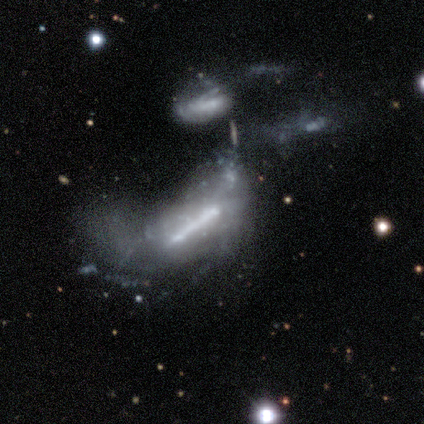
smooth_or_featured: featured or disk (p=0.75) [alt: smooth p=0.25]
disk_edge_on: no (p=0.67) [alt: yes p=0.33]
bar: strong (p=1.00)
has_spiral_arms: no (p=1.00)
bulge_size: large (p=0.50) [tied with: none p=0.50]
merging: none (p=0.25) [tied with: minor disturbance p=0.25, major disturbance p=0.25, merger p=0.25]